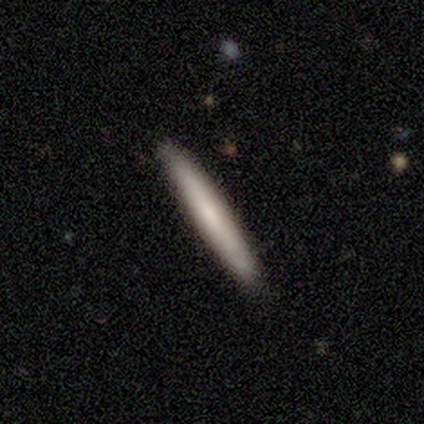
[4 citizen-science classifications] smooth-or-featured: smooth: 75% | featured or disk: 25% | star or artifact: 0%
  how-rounded: cigar-shaped: 100% | round: 0% | in between: 0%
  merging: none: 100% | minor disturbance: 0% | major disturbance: 0% | merger: 0%